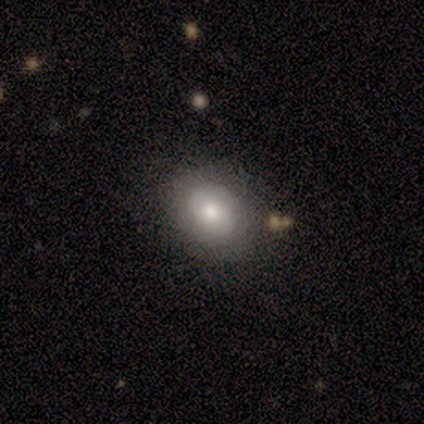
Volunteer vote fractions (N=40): This appears to be a smooth galaxy with no disk features (52%) that is round (62%). Merging: none (79%).